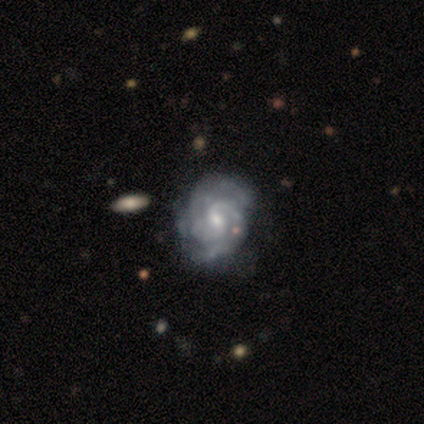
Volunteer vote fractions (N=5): Volunteers were most divided on "smooth or featured": featured or disk: 60%, star or artifact: 40%, smooth: 0%. More confident: edge-on disk — no (100%); spiral arms — yes (100%); merging — none (100%); bar — weak (67%); spiral winding — tight (67%); spiral arm count — 3 (67%); bulge size — moderate (67%).